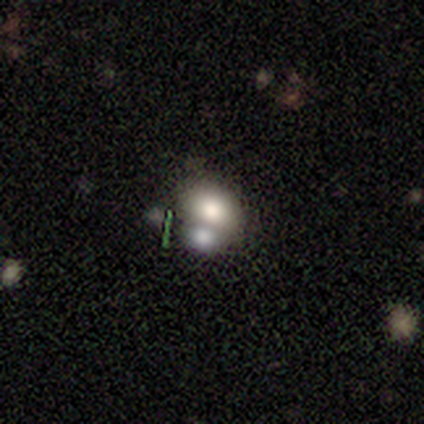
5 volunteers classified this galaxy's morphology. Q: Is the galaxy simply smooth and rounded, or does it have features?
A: smooth — 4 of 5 (80%).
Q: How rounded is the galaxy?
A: in between — 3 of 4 (75%).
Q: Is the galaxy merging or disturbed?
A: merger — 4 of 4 (100%).